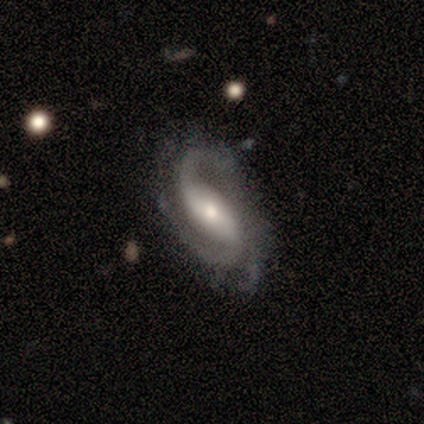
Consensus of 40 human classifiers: Smooth or featured: featured or disk — 98% (smooth — 2%)
Edge-on disk: no — 92% (yes — 8%)
Bar: strong — 47% (weak — 36%)
Spiral arms: yes — 94% (no — 6%)
Spiral winding: medium — 56% (loose — 24%)
Spiral arm count: 2 — 65% (3 — 18%)
Bulge size: moderate — 61% (large — 19%)
Merging: none — 38% (minor disturbance — 35%)